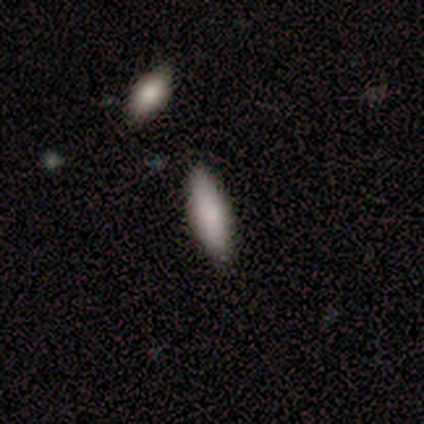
Morphology: type=smooth (100%); roundness=in between (80%); merging=none (100%).